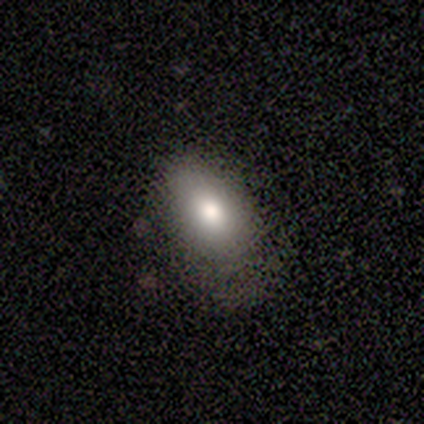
Q: Smooth or featured?
A: star or artifact (50%); runner-up: smooth (25%)